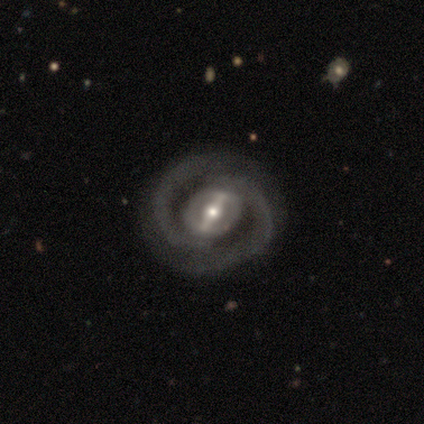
smooth-or-featured: featured or disk: 92% | smooth: 5% | star or artifact: 3%
  disk-edge-on: no: 97% | yes: 3%
    bar: strong: 79% | weak: 18% | no: 3%
    has-spiral-arms: yes: 97% | no: 3%
      spiral-winding: medium: 58% | tight: 27% | loose: 15%
      spiral-arm-count: 2: 97% | can't tell: 3% | 1: 0% | 3: 0% | 4: 0% | more than 4: 0%
    bulge-size: moderate: 50% | small: 32% | large: 18% | dominant: 0% | none: 0%
  merging: none: 62% | minor disturbance: 14% | major disturbance: 3% | merger: 0%